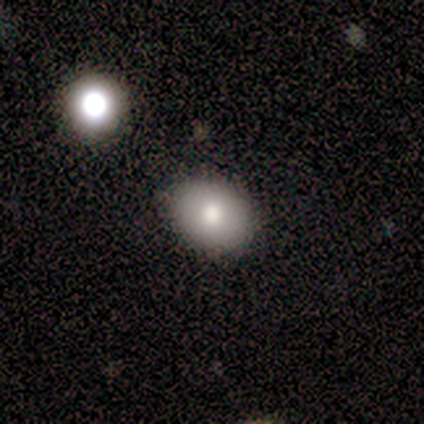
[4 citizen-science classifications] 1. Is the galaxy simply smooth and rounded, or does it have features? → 75% smooth, 25% featured or disk, 0% star or artifact.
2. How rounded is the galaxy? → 67% in between, 33% round, 0% cigar-shaped.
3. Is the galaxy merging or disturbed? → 50% none (tied), 50% minor disturbance (tied), 0% major disturbance, 0% merger.